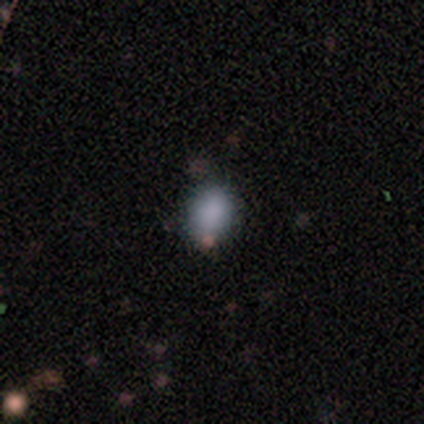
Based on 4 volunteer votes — A smooth galaxy with no disk features (75%) that is round (67%).

Vote fractions:
- Smooth or featured? smooth: 75% / star or artifact: 25% / featured or disk: 0%
- How rounded? round: 67% / in between: 33% / cigar-shaped: 0%
- Merging? none: 100% / minor disturbance: 0% / major disturbance: 0% / merger: 0%